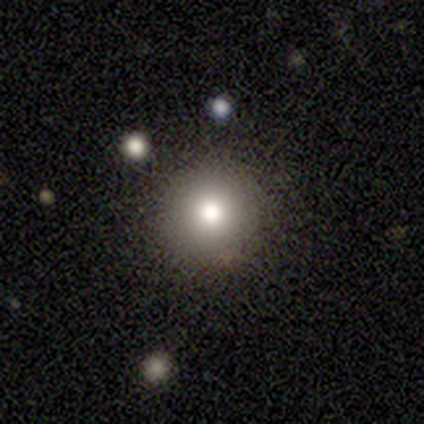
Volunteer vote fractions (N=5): Smooth or featured?
  - smooth: 100% *
  - featured or disk: 0%
  - star or artifact: 0%
How rounded?
  - round: 80% *
  - in between: 20%
  - cigar-shaped: 0%
Merging?
  - none: 100% *
  - minor disturbance: 0%
  - major disturbance: 0%
  - merger: 0%